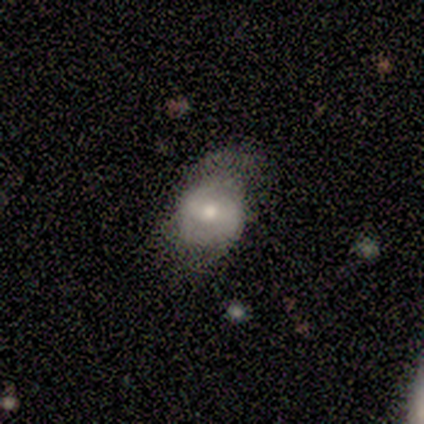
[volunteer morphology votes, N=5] type=smooth (40%, tied with featured or disk); roundness=round (50%, tied with in between); merging=none (50%, tied with minor disturbance).